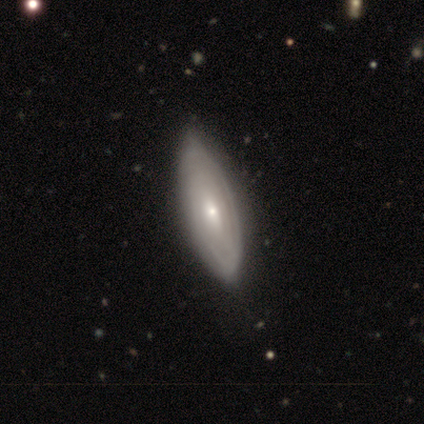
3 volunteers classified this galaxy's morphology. type=featured or disk (67%); edge-on=no (100%); bar=no (100%); spiral arms=yes (100%); winding=tight (100%); arm count=3 (50%, tied with can't tell); bulge=moderate (50%, tied with small); merging=none (100%).